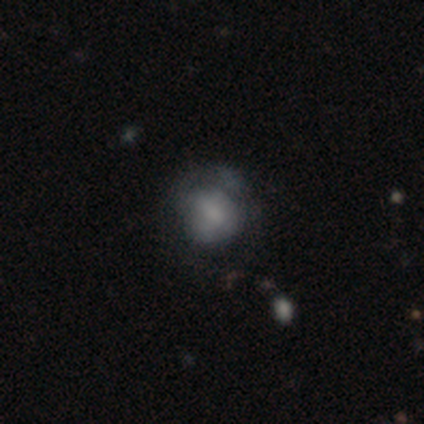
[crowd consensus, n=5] Q: Smooth or featured?
A: smooth (60%); runner-up: featured or disk (40%)
Q: How rounded?
A: round (67%); runner-up: in between (33%)
Q: Merging?
A: minor disturbance (60%); runner-up: none (40%)